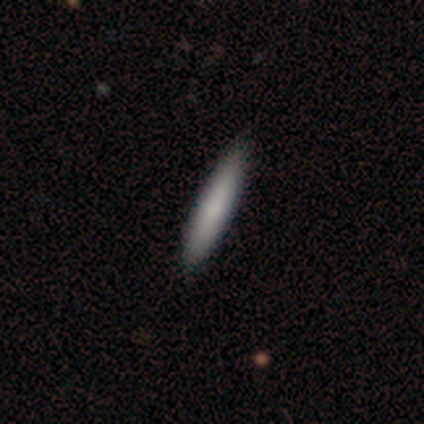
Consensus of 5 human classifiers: smooth-or-featured: smooth: 100% | featured or disk: 0% | star or artifact: 0%
  how-rounded: cigar-shaped: 100% | round: 0% | in between: 0%
  merging: none: 80% | minor disturbance: 20% | major disturbance: 0% | merger: 0%